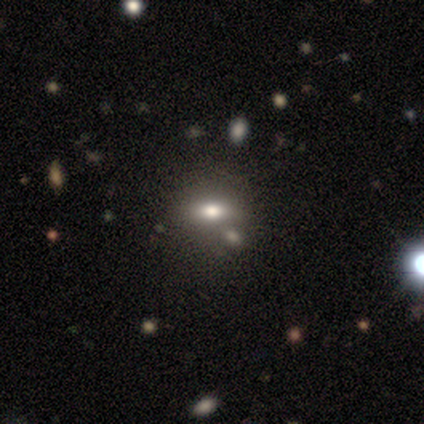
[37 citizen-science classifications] smooth_or_featured: smooth (p=0.59) [alt: star or artifact p=0.22]
how_rounded: in between (p=0.59) [alt: round p=0.41]
merging: merger (p=0.52)